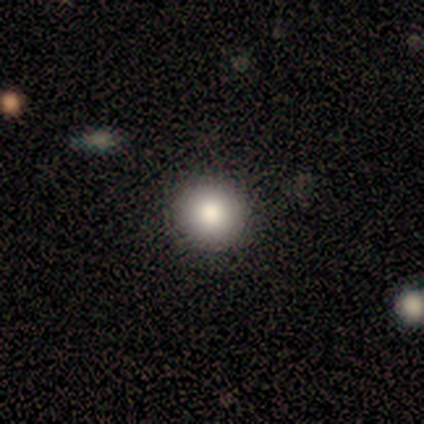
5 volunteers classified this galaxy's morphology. smooth-or-featured: smooth: 80% | star or artifact: 20% | featured or disk: 0%
  how-rounded: round: 100% | in between: 0% | cigar-shaped: 0%
  merging: none: 100% | minor disturbance: 0% | major disturbance: 0% | merger: 0%